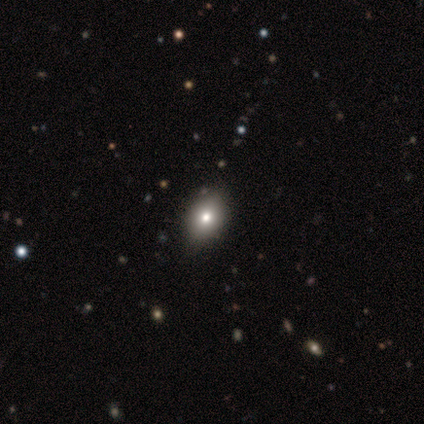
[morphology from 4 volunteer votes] Smooth or featured?
  - smooth: 75% *
  - star or artifact: 25%
  - featured or disk: 0%
How rounded?
  - in between: 67% *
  - round: 33%
  - cigar-shaped: 0%
Merging?
  - none: 100% *
  - minor disturbance: 0%
  - major disturbance: 0%
  - merger: 0%